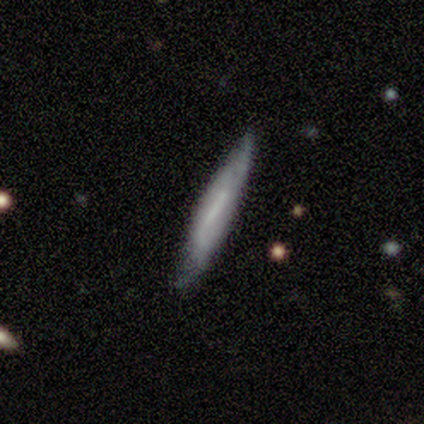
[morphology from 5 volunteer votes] smooth 60%, featured or disk 40%, star or artifact 0%. Down the decision tree: how rounded — cigar-shaped (100%); merging — none (100%).